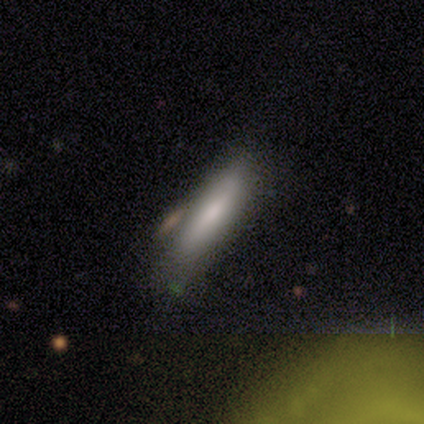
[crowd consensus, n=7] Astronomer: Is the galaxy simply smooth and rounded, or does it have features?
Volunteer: smooth — 71%.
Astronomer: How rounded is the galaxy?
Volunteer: cigar-shaped — 80%.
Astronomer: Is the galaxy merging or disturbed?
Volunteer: none — 86%.